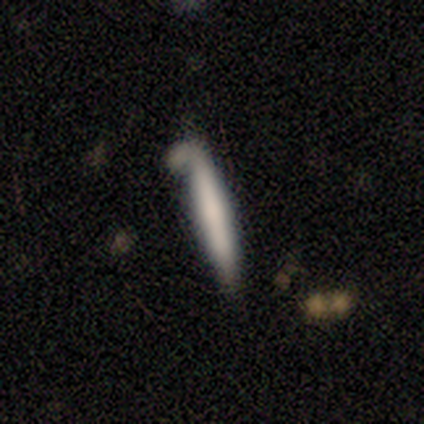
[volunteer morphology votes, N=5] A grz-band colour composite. It shows a smooth galaxy with no disk features (80%) that is cigar-shaped (100%). Merging: none (60%).